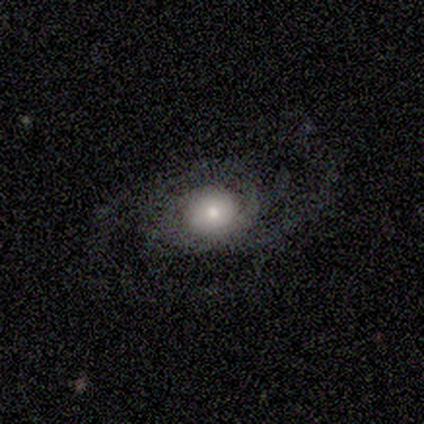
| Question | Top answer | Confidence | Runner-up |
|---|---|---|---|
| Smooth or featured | smooth | 60% | featured or disk (40%) |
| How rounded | round | 67% | cigar-shaped (33%) |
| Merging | none | 80% | minor disturbance (20%) |